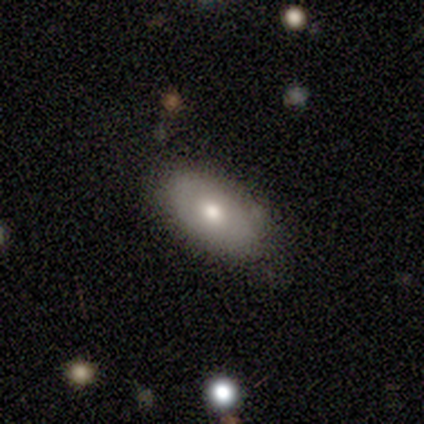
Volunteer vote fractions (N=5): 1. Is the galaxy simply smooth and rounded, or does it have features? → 100% smooth, 0% featured or disk, 0% star or artifact.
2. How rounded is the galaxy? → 100% in between, 0% round, 0% cigar-shaped.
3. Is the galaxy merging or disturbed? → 80% none, 20% minor disturbance, 0% major disturbance, 0% merger.